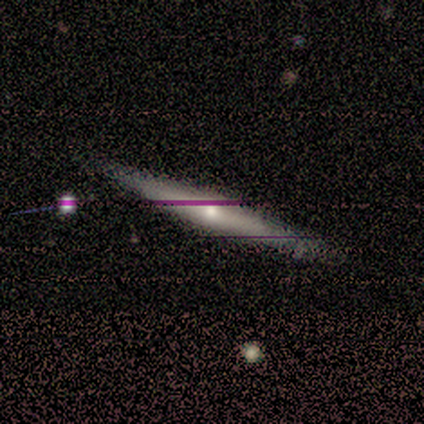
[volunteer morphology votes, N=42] Volunteers were most divided on "smooth or featured": featured or disk: 60%, smooth: 31%, star or artifact: 10%. More confident: edge-on disk — yes (100%); merging — none (84%); edge-on bulge — rounded (84%).